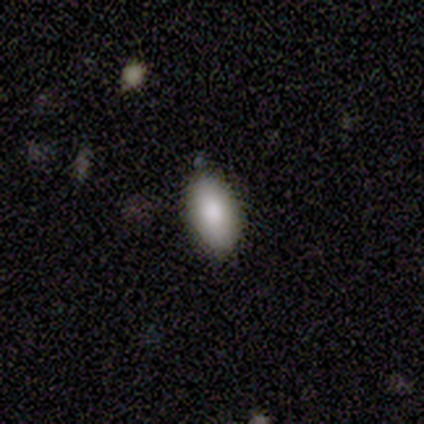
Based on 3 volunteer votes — Smooth or featured?
  - smooth: 67% *
  - star or artifact: 33%
  - featured or disk: 0%
How rounded?
  - in between: 100% *
  - round: 0%
  - cigar-shaped: 0%
Merging?
  - none: 100% *
  - minor disturbance: 0%
  - major disturbance: 0%
  - merger: 0%